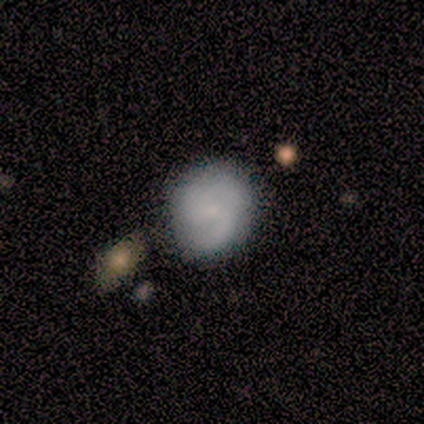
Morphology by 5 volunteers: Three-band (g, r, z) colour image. It shows a featured or disk galaxy (80%) with no bar (75%), 2 (75%) medium (75%) spiral arms (100%) and a small central bulge (100%). Merging: none (100%).